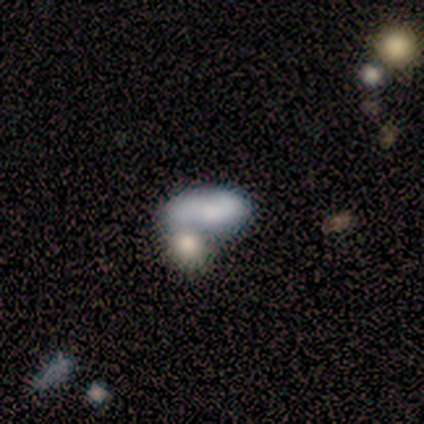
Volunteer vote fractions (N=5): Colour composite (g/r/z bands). It shows a smooth galaxy with no disk features (80%) that is in between round and cigar-shaped (75%). Merging: none (50%).